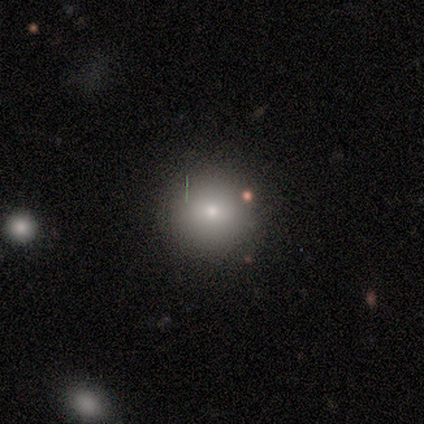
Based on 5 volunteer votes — Smooth or featured: smooth — 80% (featured or disk — 20%)
How rounded: round — 100%
Merging: none — 100%